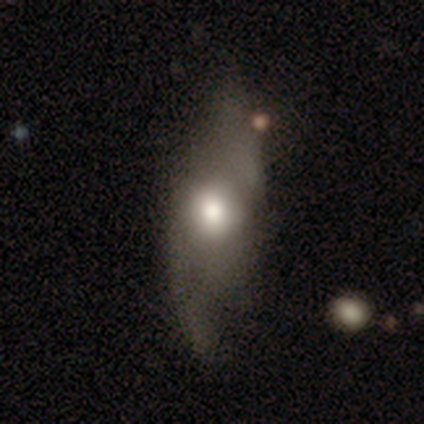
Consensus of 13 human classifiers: Smooth or featured?
  - featured or disk: 62% *
  - smooth: 23%
  - star or artifact: 15%
Edge-on disk?
  - no: 100% *
  - yes: 0%
Bar?
  - no: 75% *
  - strong: 12%
  - weak: 12%
Spiral arms?
  - yes: 75% *
  - no: 25%
Spiral winding?
  - loose: 83% *
  - medium: 17%
  - tight: 0%
Spiral arm count?
  - 2: 83% *
  - can't tell: 17%
  - 1: 0%
  - 3: 0%
  - 4: 0%
  - more than 4: 0%
Bulge size?
  - moderate: 50% *
  - large: 38%
  - small: 12%
  - dominant: 0%
  - none: 0%
Merging?
  - none: 45% *
  - minor disturbance: 27%
  - major disturbance: 27%
  - merger: 0%